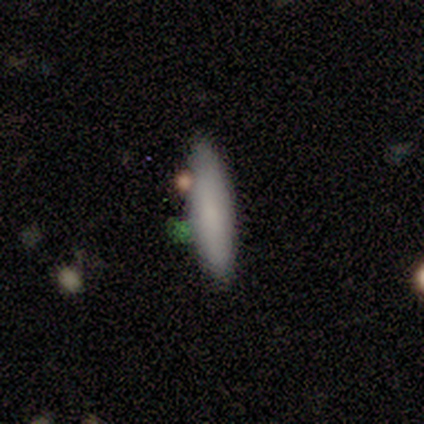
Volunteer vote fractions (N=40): Smooth or featured?
  - smooth: 80% *
  - featured or disk: 18%
  - star or artifact: 2%
How rounded?
  - cigar-shaped: 53% *
  - in between: 47%
  - round: 0%
Merging?
  - none: 72% *
  - minor disturbance: 15%
  - merger: 10%
  - major disturbance: 3%